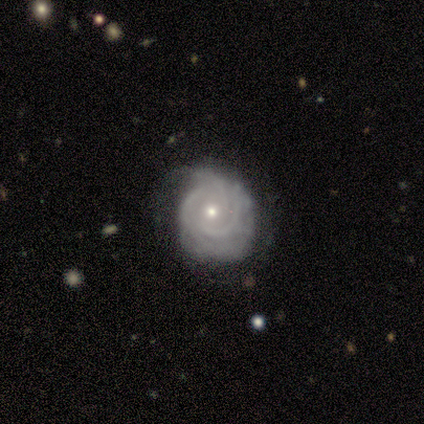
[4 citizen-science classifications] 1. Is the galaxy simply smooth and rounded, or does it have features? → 75% featured or disk, 25% smooth, 0% star or artifact.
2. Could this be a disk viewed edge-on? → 100% no, 0% yes.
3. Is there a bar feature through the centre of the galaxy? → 67% no, 33% weak, 0% strong.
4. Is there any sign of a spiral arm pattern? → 100% yes, 0% no.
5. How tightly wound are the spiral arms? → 100% tight, 0% medium, 0% loose.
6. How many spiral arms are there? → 67% 3, 33% can't tell, 0% 1, 0% 2, 0% 4, 0% more than 4.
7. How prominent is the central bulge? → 100% small, 0% dominant, 0% large, 0% moderate, 0% none.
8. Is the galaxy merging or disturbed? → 75% none, 25% minor disturbance, 0% major disturbance, 0% merger.